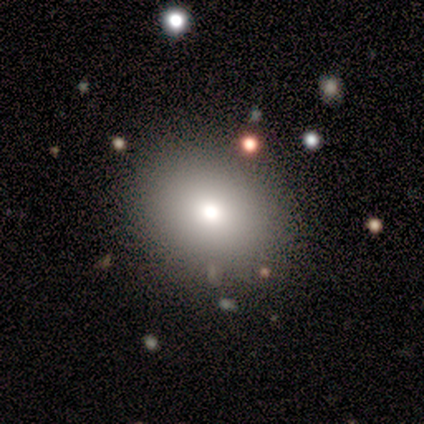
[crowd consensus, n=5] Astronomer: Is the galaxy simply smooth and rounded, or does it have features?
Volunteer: smooth — 60% (runner-up: star or artifact, 40%).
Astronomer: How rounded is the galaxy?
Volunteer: round — 100%.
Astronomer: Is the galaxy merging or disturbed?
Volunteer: none — 67%.